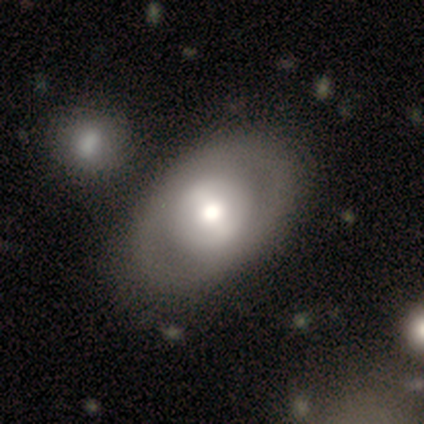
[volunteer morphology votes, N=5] A smooth galaxy with no disk features (60%) that is in between round and cigar-shaped (100%).

Vote fractions:
- Smooth or featured? smooth: 60% / featured or disk: 40% / star or artifact: 0%
- How rounded? in between: 100% / round: 0% / cigar-shaped: 0%
- Merging? none: 80% / merger: 20% / minor disturbance: 0% / major disturbance: 0%